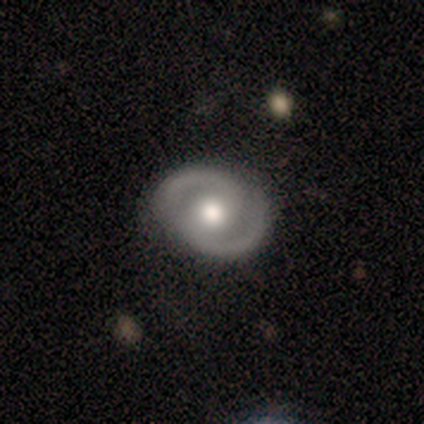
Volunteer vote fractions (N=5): Smooth or featured? 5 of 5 (100%) said featured or disk. Edge-on disk? 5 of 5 (100%) said no. Bar? 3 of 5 (60%) said no. Spiral arms? 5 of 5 (100%) said yes. Spiral winding? 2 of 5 (40%, tied with loose) said tight. Spiral arm count? 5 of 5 (100%) said 2. Bulge size? 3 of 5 (60%) said moderate. Merging? 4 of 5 (80%) said none.